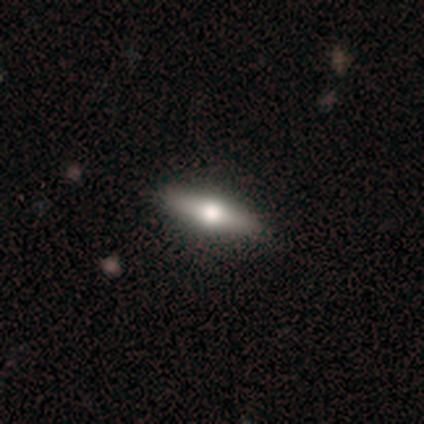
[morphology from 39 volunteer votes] smooth 56%, featured or disk 41%, star or artifact 3%. Down the decision tree: how rounded — cigar-shaped (68%); merging — none (76%).